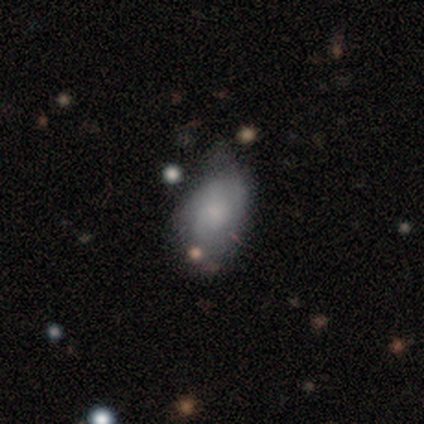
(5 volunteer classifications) smooth_or_featured: featured or disk (p=0.60) [alt: smooth p=0.40]
disk_edge_on: no (p=1.00)
bar: no (p=1.00)
has_spiral_arms: no (p=1.00)
bulge_size: none (p=0.67) [alt: small p=0.33]
merging: minor disturbance (p=0.60) [alt: none p=0.20]